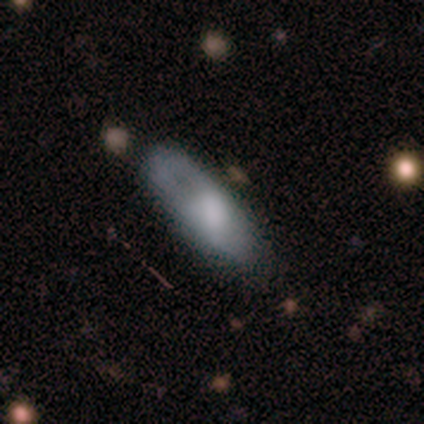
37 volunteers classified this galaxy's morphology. Q: Smooth or featured?
A: smooth (51%); runner-up: featured or disk (41%)
Q: How rounded?
A: in between (84%); runner-up: cigar-shaped (16%)
Q: Merging?
A: none (59%); runner-up: minor disturbance (29%)